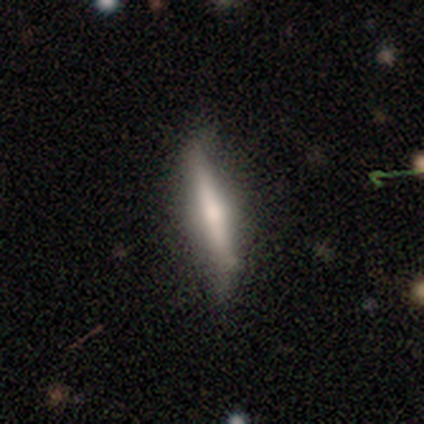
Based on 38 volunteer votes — Smooth or featured? featured or disk (50%)
Edge-on disk? yes (89%)
Edge-on bulge? rounded (71%)
Merging? none (78%)